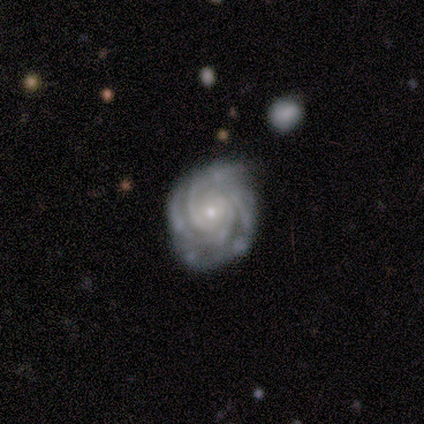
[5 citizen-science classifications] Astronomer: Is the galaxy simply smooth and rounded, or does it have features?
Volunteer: featured or disk — 80%.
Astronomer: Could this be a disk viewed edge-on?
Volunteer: no — 100%.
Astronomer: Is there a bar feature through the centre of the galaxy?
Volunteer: no — 75%.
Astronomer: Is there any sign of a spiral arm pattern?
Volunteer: yes — 100%.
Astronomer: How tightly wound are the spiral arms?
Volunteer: tight — 75%.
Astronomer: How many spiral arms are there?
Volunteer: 3 — 75%.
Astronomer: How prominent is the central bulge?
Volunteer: small — 100%.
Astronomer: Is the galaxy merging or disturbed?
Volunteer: none — 80%.